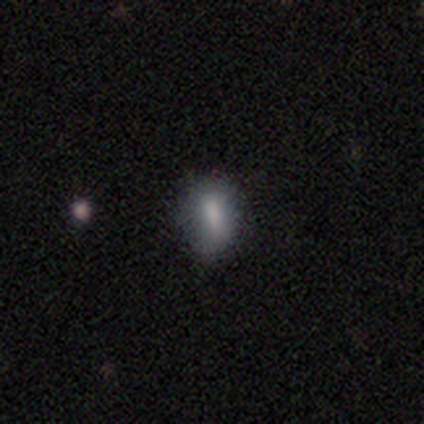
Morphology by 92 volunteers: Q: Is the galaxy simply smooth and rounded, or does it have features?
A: smooth — 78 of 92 (85%).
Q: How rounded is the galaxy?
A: in between — 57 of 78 (73%).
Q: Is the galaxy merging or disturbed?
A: none — 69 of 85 (81%).